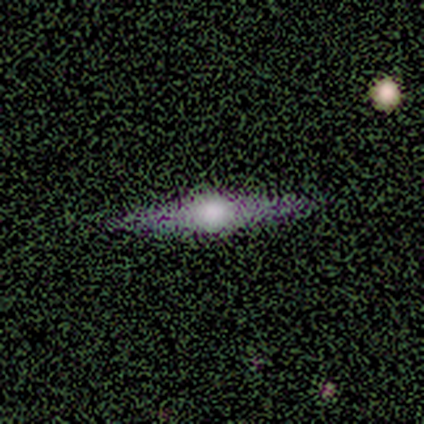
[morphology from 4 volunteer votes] This is likely a featured or disk galaxy (75%). It is clearly viewed edge-on (100%). Edge-on bulge: clearly rounded (100%). Merging: clearly none (100%).